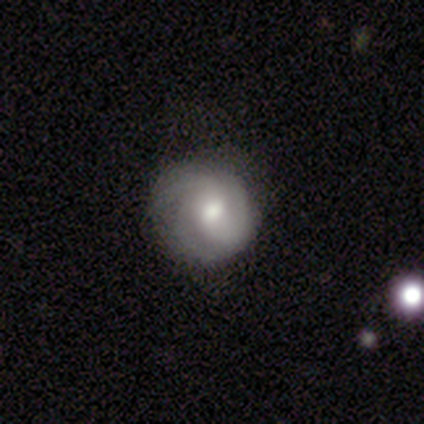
smooth_or_featured: smooth (p=0.50) [tied with: featured or disk p=0.50]
how_rounded: round (p=1.00)
merging: none (p=0.83) [alt: minor disturbance p=0.17]